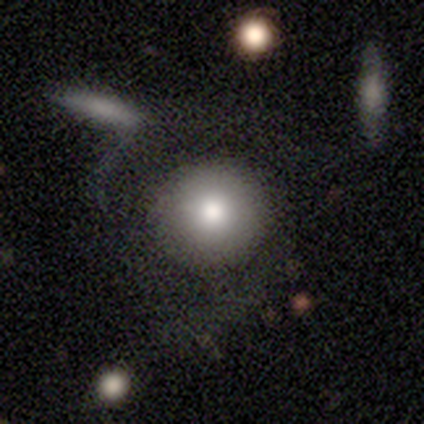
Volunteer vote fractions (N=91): A smooth galaxy with no disk features (84%) that is round (91%). Merging: none (67%).